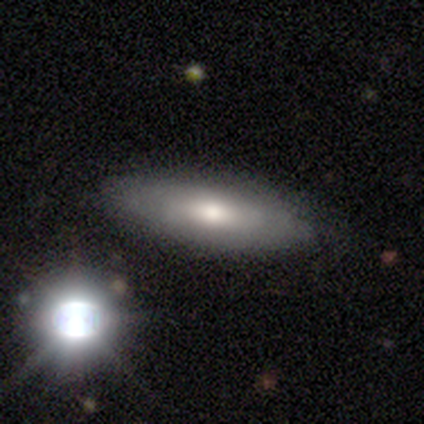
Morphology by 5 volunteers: A smooth galaxy with no disk features (80%) that is cigar-shaped (75%).

Vote fractions:
- Smooth or featured? smooth: 80% / featured or disk: 20% / star or artifact: 0%
- How rounded? cigar-shaped: 75% / in between: 25% / round: 0%
- Merging? none: 100% / minor disturbance: 0% / major disturbance: 0% / merger: 0%